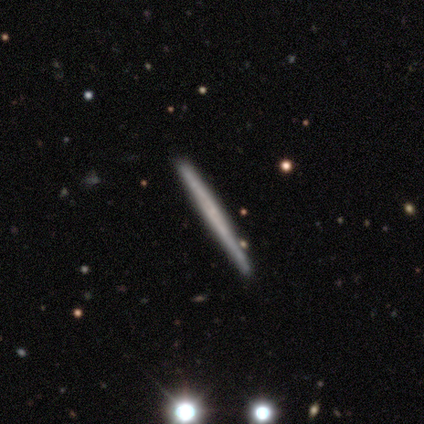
Overall: featured or disk (60%; smooth 40%). Edge-on disk: yes (100%). Edge-on bulge: none (100%). Merging: none (100%).